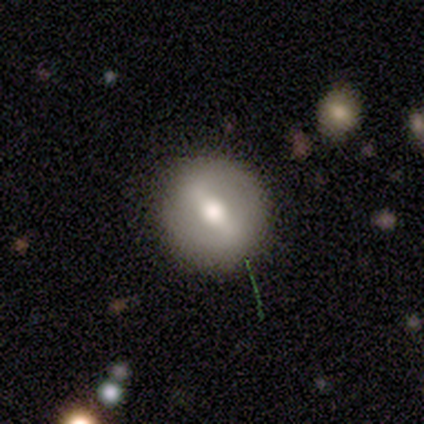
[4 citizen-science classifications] A smooth galaxy with no disk features (50%, tied with featured or disk) that is round (100%).

Vote fractions:
- Smooth or featured? smooth: 50% (tied) / featured or disk: 50% (tied) / star or artifact: 0%
- How rounded? round: 100% / in between: 0% / cigar-shaped: 0%
- Merging? none: 100% / minor disturbance: 0% / major disturbance: 0% / merger: 0%